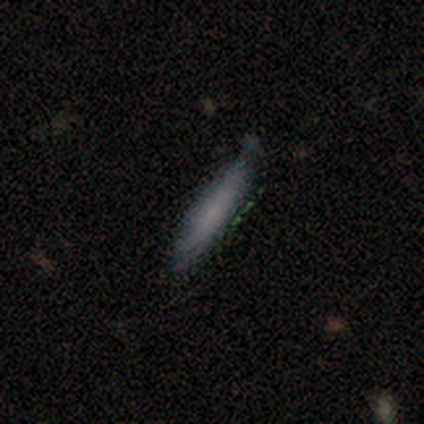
This is likely a smooth galaxy (60%). How rounded: clearly cigar-shaped (100%). Merging: likely none (75%).